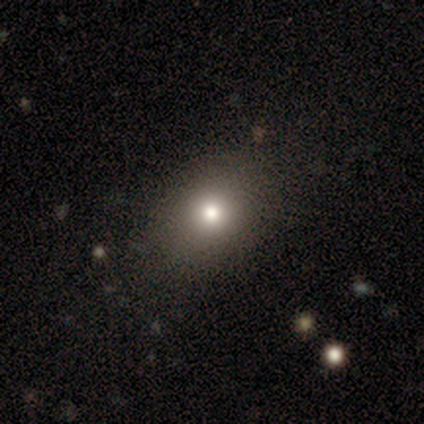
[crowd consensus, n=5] Volunteers were most divided on "how rounded": in between: 80%, round: 20%, cigar-shaped: 0%. More confident: smooth or featured — smooth (100%); merging — none (80%).